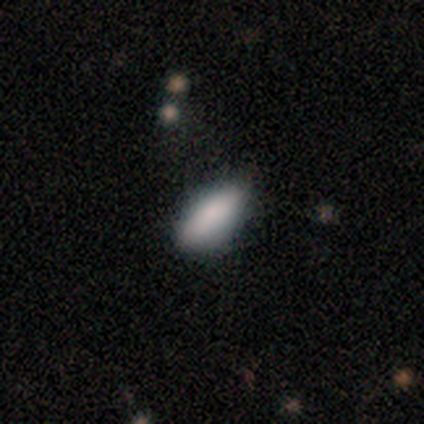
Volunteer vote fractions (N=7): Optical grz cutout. It shows a smooth galaxy with no disk features (100%) that is in between round and cigar-shaped (71%). Merging: none (57%).